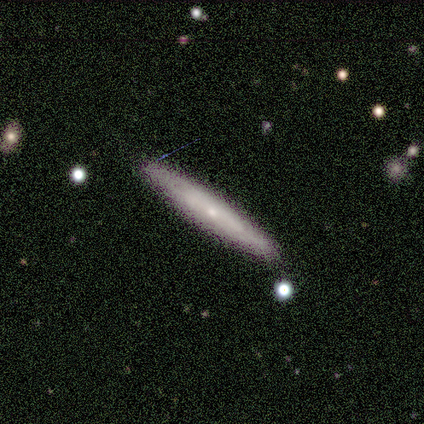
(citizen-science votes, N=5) Volunteers were most divided on "smooth or featured": smooth: 60%, featured or disk: 20%, star or artifact: 20%. More confident: how rounded — cigar-shaped (100%); merging — none (100%).